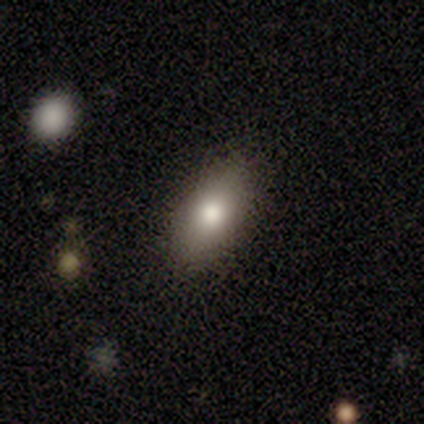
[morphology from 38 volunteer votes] This is likely a smooth galaxy (74%). How rounded: likely in between (79%). Merging: clearly none (94%).